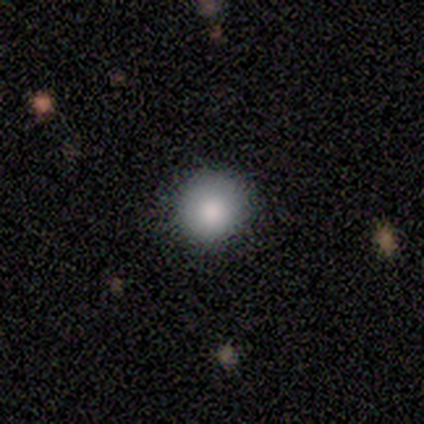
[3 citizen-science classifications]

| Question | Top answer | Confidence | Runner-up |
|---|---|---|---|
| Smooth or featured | smooth | 67% | featured or disk (33%) |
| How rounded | round | 50% | tied: in between (50%) |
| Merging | none | 33% | tied: minor disturbance (33%), merger (33%) |